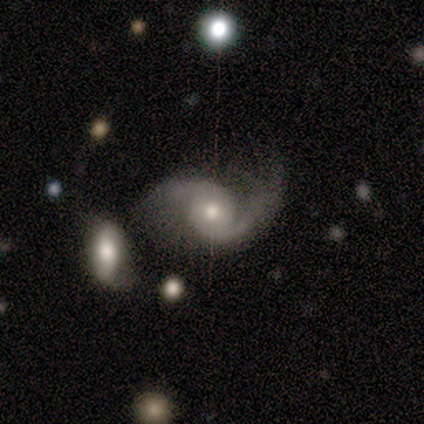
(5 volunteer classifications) A featured or disk galaxy (100%) with no bar (80%), 2 (100%) loose (100%) spiral arms (100%) and a moderate central bulge (100%). Merging: minor disturbance (60%).